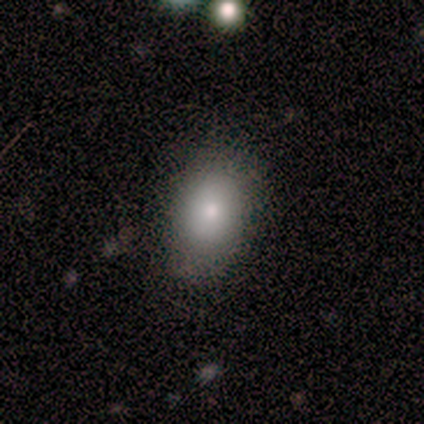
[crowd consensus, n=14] This is likely a smooth galaxy (71%). How rounded: clearly in between (80%). Merging: clearly none (100%).